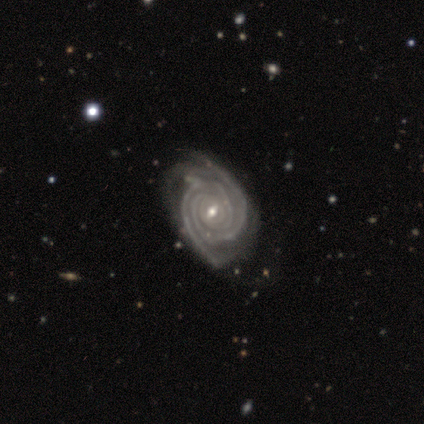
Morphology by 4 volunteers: Volunteers were most divided on "merging" (2-way tie): none: 50%, minor disturbance: 50%, major disturbance: 0%, merger: 0%. More confident: smooth or featured — featured or disk (100%); edge-on disk — no (100%); spiral arms — yes (100%); spiral winding — tight (100%); spiral arm count — 2 (100%); bulge size — small (75%); bar — weak (50%).